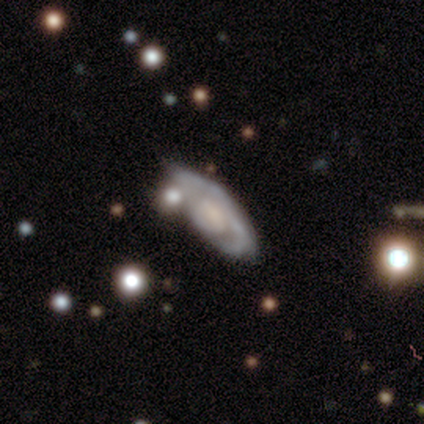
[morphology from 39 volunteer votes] A featured or disk galaxy (90%) with no bar (53%), tight (45%) spiral arms (67%) and a large central bulge (37%). Merging: none (58%).